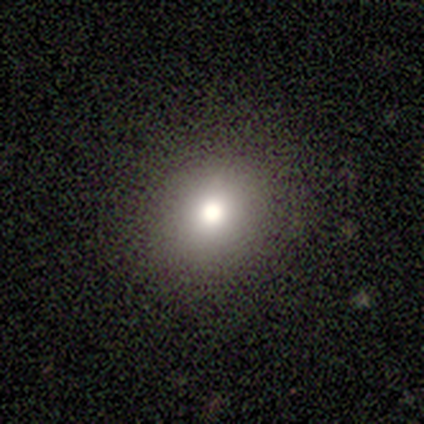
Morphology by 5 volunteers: smooth 100%, featured or disk 0%, star or artifact 0%. Down the decision tree: how rounded — round (80%); merging — none (80%).